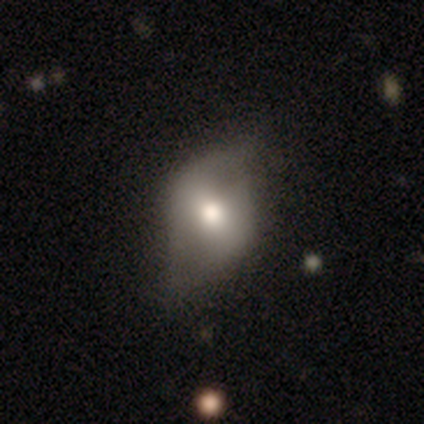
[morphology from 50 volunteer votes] smooth_or_featured: smooth (p=0.48) [alt: featured or disk p=0.46]
how_rounded: in between (p=0.71) [alt: round p=0.29]
merging: minor disturbance (p=0.45) [alt: none p=0.40]